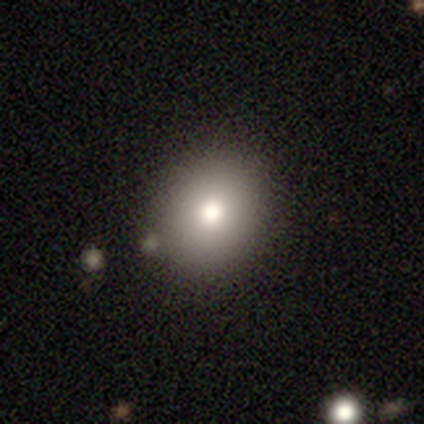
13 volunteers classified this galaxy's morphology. Smooth or featured: smooth — 100%
How rounded: round — 77% (in between — 23%)
Merging: none — 77% (minor disturbance — 15%)